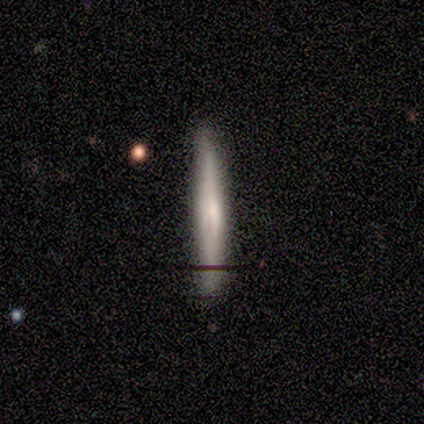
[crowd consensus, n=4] Smooth or featured?
  - smooth: 50% * (tied)
  - featured or disk: 50% * (tied)
  - star or artifact: 0%
How rounded?
  - in between: 50% * (tied)
  - cigar-shaped: 50% * (tied)
  - round: 0%
Merging?
  - none: 50% *
  - minor disturbance: 25%
  - merger: 25%
  - major disturbance: 0%